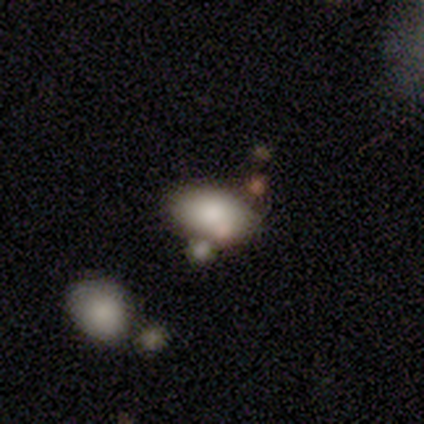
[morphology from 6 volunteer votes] smooth-or-featured: smooth: 50% | star or artifact: 33% | featured or disk: 17%
  how-rounded: in between: 100% | round: 0% | cigar-shaped: 0%
  merging: none: 50% (tied) | merger: 50% (tied) | minor disturbance: 0% | major disturbance: 0%